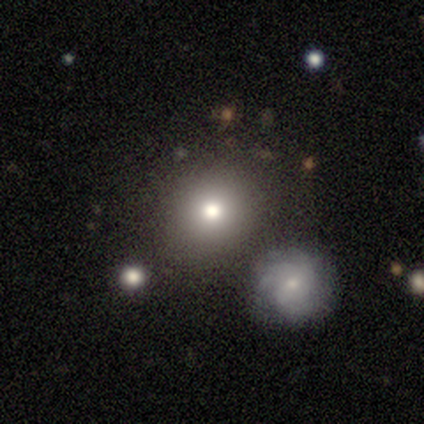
Morphology: type=smooth (50%); roundness=round (50%, tied with in between); merging=none (33%, tied with minor disturbance and merger).